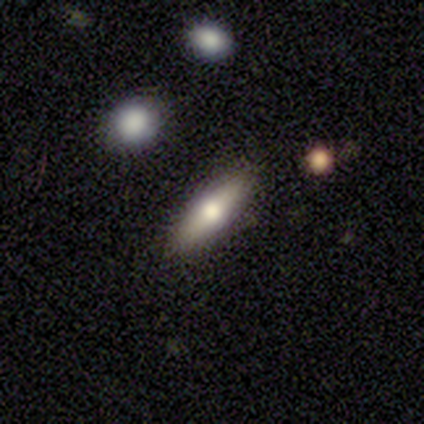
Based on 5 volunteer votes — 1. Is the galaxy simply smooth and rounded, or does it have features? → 60% smooth, 40% featured or disk, 0% star or artifact.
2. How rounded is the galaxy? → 67% cigar-shaped, 33% in between, 0% round.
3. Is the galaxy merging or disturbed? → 60% none, 40% minor disturbance, 0% major disturbance, 0% merger.